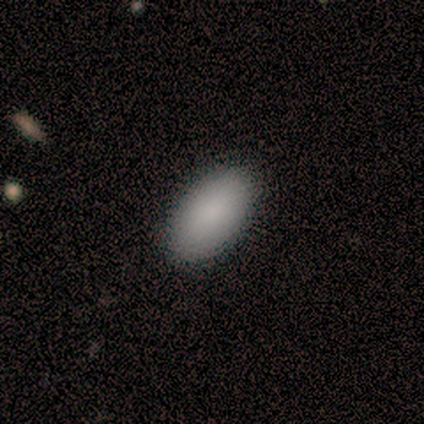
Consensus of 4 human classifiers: smooth_or_featured: smooth (p=1.00)
how_rounded: in between (p=1.00)
merging: none (p=0.75) [alt: minor disturbance p=0.25]